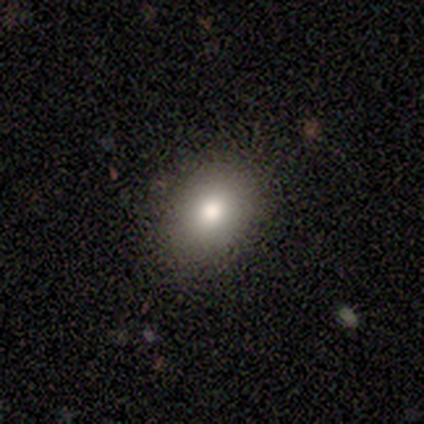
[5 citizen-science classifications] Smooth or featured?
  - smooth: 80% *
  - star or artifact: 20%
  - featured or disk: 0%
How rounded?
  - in between: 75% *
  - round: 25%
  - cigar-shaped: 0%
Merging?
  - none: 50% * (tied)
  - minor disturbance: 50% * (tied)
  - major disturbance: 0%
  - merger: 0%